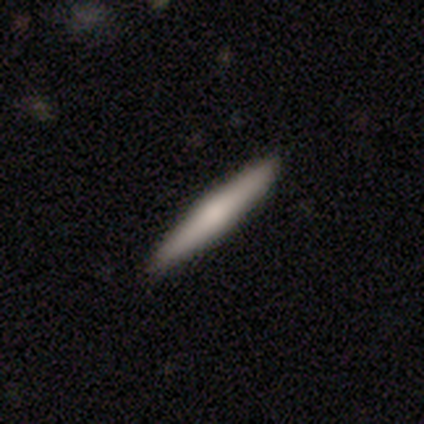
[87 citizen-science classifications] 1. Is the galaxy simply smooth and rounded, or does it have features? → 60% smooth, 34% featured or disk, 6% star or artifact.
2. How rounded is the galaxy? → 98% cigar-shaped, 2% round, 0% in between.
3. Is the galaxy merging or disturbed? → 98% none, 2% minor disturbance, 0% major disturbance, 0% merger.